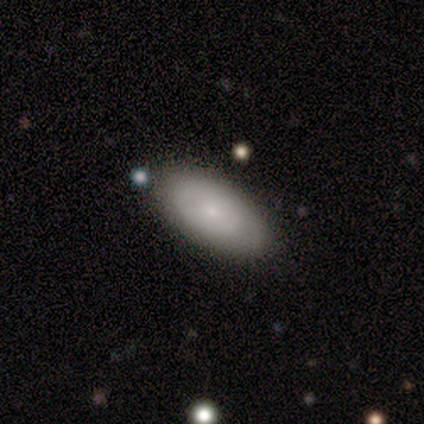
This is likely a smooth galaxy (60%). How rounded: clearly in between (100%). Merging: clearly none (100%).